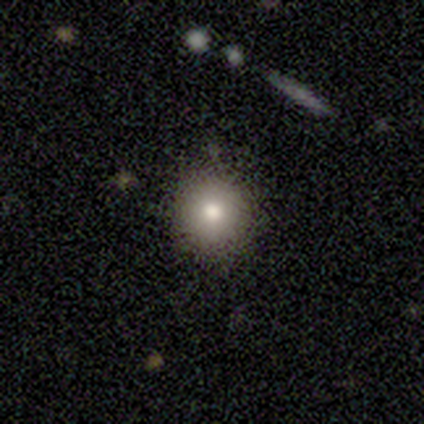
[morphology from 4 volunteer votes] Smooth or featured: smooth — 50% (featured or disk — 25%)
How rounded: round — 100%
Merging: none — 100%